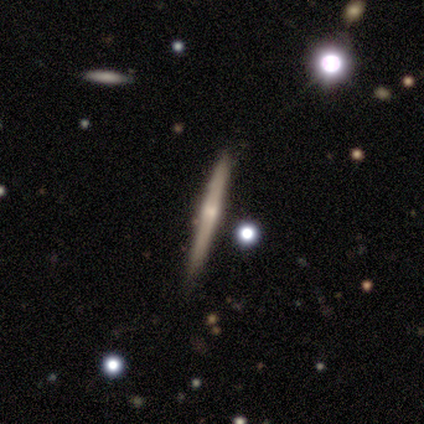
smooth_or_featured: featured or disk (p=0.81) [alt: smooth p=0.12]
disk_edge_on: yes (p=0.97) [alt: no p=0.03]
edge_on_bulge: rounded (p=0.55) [alt: none p=0.27]
merging: none (p=0.77) [alt: minor disturbance p=0.21]